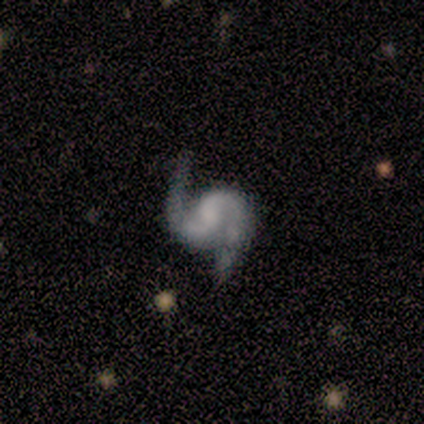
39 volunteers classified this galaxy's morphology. Q: Smooth or featured?
A: featured or disk (85%); runner-up: star or artifact (10%)
Q: Edge-on disk?
A: no (100%)
Q: Bar?
A: no (61%); runner-up: weak (24%)
Q: Spiral arms?
A: yes (100%)
Q: Spiral winding?
A: loose (45%); runner-up: medium (42%)
Q: Spiral arm count?
A: 2 (100%)
Q: Bulge size?
A: none (70%); runner-up: small (18%)
Q: Merging?
A: none (77%); runner-up: major disturbance (11%)